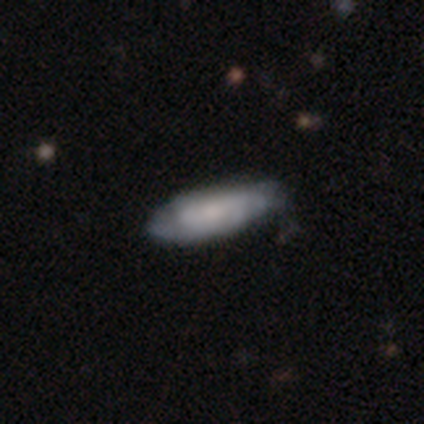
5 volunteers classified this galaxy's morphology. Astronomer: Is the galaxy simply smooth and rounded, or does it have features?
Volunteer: featured or disk — 60% (runner-up: smooth, 40%).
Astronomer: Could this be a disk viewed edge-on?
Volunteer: no — 100%.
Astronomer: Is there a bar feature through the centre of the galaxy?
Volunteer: no — 100%.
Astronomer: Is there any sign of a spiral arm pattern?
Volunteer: no — 67%.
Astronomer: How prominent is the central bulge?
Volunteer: dominant — 33%, tied with moderate and small at 33%.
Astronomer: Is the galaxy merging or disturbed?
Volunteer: none — 60%.